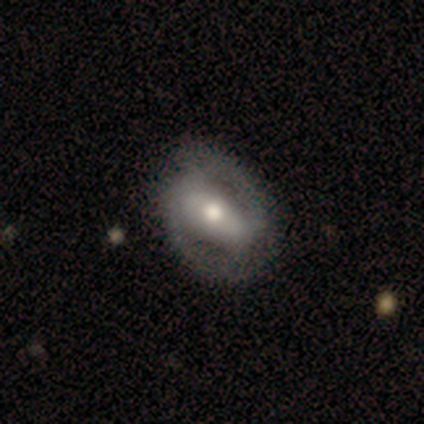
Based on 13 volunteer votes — smooth_or_featured: featured or disk (p=0.62) [alt: smooth p=0.38]
disk_edge_on: no (p=1.00)
bar: strong (p=0.38) [tied with: weak p=0.38]
has_spiral_arms: yes (p=0.75) [alt: no p=0.25]
spiral_winding: tight (p=0.50) [alt: medium p=0.33]
spiral_arm_count: 2 (p=1.00)
bulge_size: moderate (p=0.88) [alt: small p=0.12]
merging: none (p=0.69) [alt: minor disturbance p=0.23]